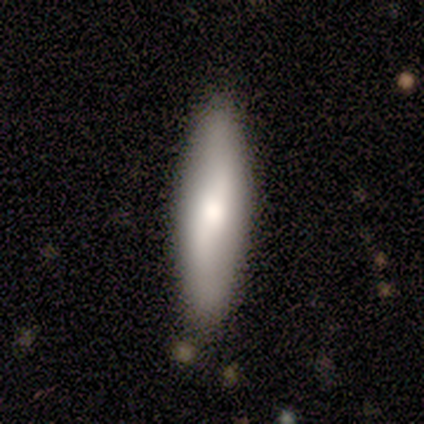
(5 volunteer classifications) smooth 80%, featured or disk 20%, star or artifact 0%. Down the decision tree: how rounded — in between (50%, tied with cigar-shaped); merging — none (100%).